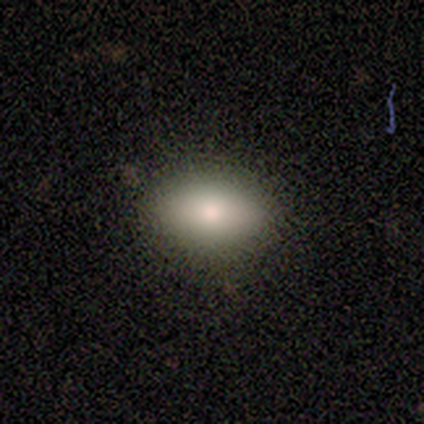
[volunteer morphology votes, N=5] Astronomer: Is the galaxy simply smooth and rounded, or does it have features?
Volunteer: smooth — 100%.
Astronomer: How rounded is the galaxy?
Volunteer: in between — 100%.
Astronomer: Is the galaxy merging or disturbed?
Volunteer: none — 80%.